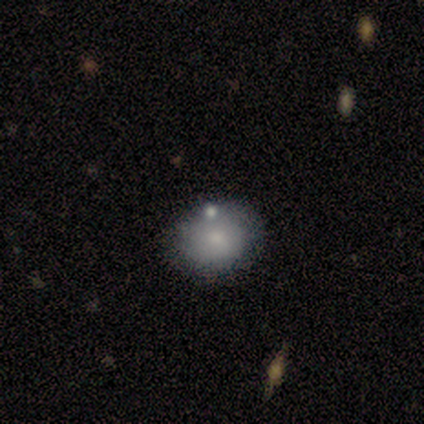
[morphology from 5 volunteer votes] Volunteers were most divided on "merging": none: 60%, minor disturbance: 40%, major disturbance: 0%, merger: 0%. More confident: how rounded — round (100%); smooth or featured — smooth (80%).